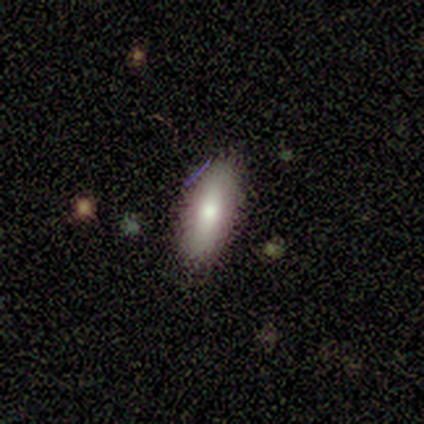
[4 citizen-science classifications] Smooth or featured? smooth (75%)
How rounded? in between (100%)
Merging? none (100%)